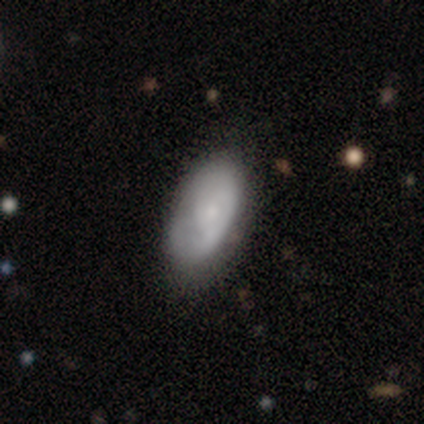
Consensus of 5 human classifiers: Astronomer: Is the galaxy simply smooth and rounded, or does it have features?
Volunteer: smooth — 80%.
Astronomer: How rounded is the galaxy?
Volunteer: in between — 100%.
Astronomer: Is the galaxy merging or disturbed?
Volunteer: none — 60% (runner-up: minor disturbance, 40%).